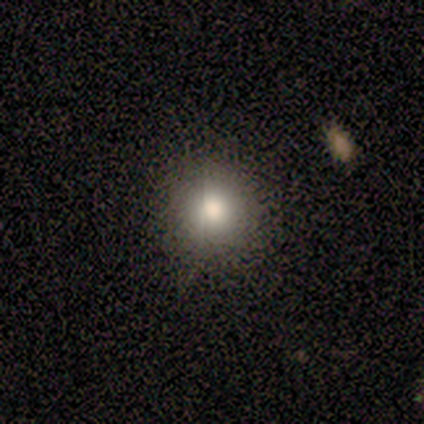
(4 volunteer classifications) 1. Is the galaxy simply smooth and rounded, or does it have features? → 75% smooth, 25% featured or disk, 0% star or artifact.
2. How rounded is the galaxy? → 100% round, 0% in between, 0% cigar-shaped.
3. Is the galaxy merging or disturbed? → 100% none, 0% minor disturbance, 0% major disturbance, 0% merger.